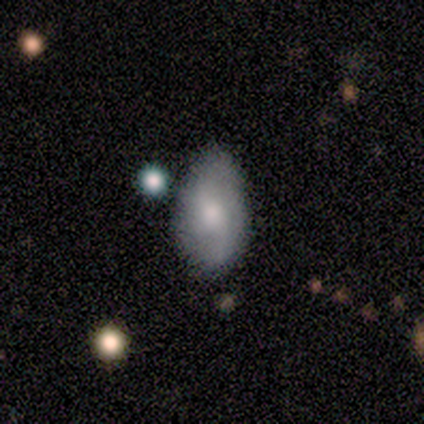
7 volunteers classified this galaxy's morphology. A smooth galaxy with no disk features (57%) that is in between round and cigar-shaped (75%). Merging: none (71%).